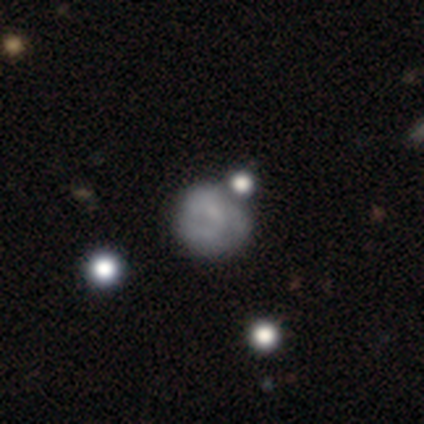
smooth_or_featured: smooth (p=0.80) [alt: featured or disk p=0.20]
how_rounded: round (p=1.00)
merging: none (p=0.60) [alt: major disturbance p=0.20]